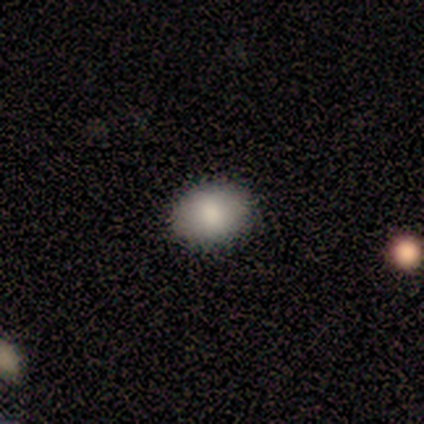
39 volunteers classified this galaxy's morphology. Smooth or featured?
  - smooth: 87% *
  - featured or disk: 10%
  - star or artifact: 3%
How rounded?
  - in between: 71% *
  - round: 29%
  - cigar-shaped: 0%
Merging?
  - none: 97% *
  - minor disturbance: 3%
  - major disturbance: 0%
  - merger: 0%